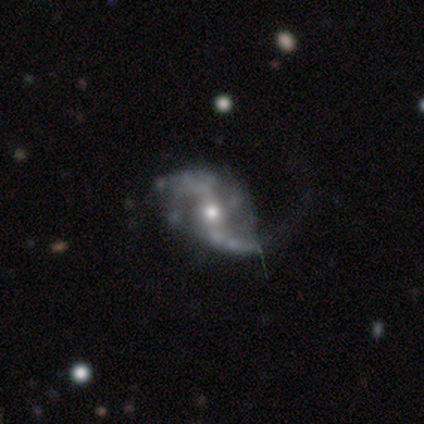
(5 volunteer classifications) Morphology: type=featured or disk (100%); edge-on=no (100%); bar=no (60%); spiral arms=yes (80%); winding=medium (50%, tied with loose); arm count=2 (75%); bulge=moderate (100%); merging=minor disturbance (40%, tied with major disturbance).